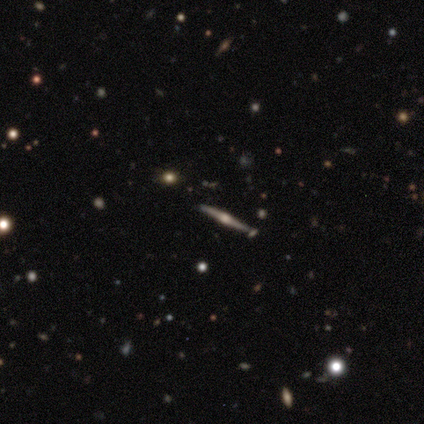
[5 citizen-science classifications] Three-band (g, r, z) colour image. It shows a featured or disk galaxy (100%) viewed edge-on (100%) with a rounded central bulge (100%). Merging: none (100%).